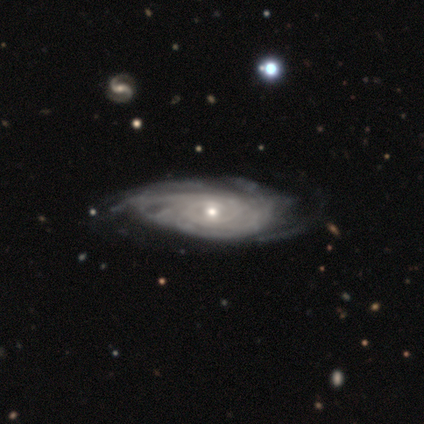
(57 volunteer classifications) A featured or disk galaxy (89%) with no bar (72%), tight (62%) spiral arms (83%) and a small central bulge (57%). Merging: none (49%).